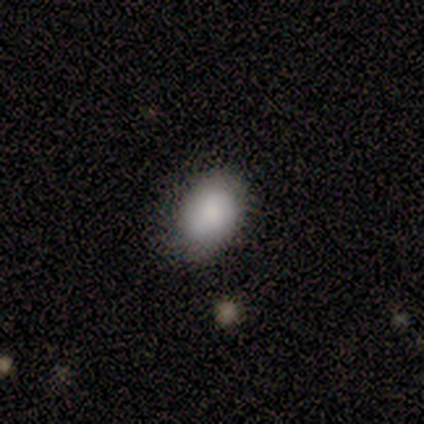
A smooth galaxy with no disk features (75%) that is in between round and cigar-shaped (67%). Merging: none (75%).